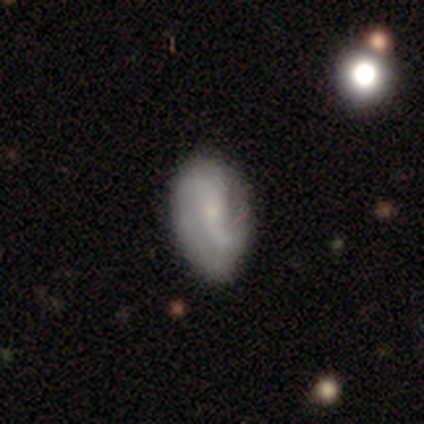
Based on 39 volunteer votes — Smooth or featured? 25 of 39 (64%) said featured or disk. Edge-on disk? 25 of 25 (100%) said no. Bar? 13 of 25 (52%) said no. Spiral arms? 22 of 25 (88%) said yes. Spiral winding? 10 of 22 (45%) said loose. Spiral arm count? 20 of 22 (91%) said 2. Bulge size? 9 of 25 (36%, tied with small) said moderate. Merging? 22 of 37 (59%) said none.